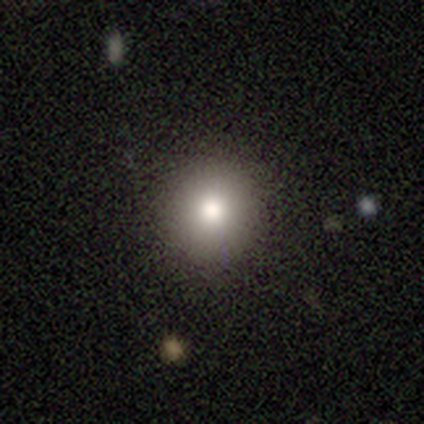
Smooth or featured? smooth (80%)
How rounded? round (100%)
Merging? none (100%)